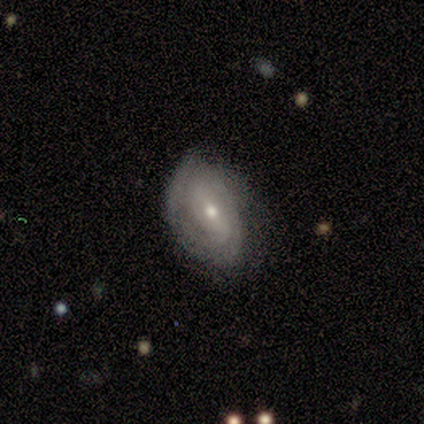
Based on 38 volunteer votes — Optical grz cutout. It shows a featured or disk galaxy (74%) with no bar (46%), 2 (48%) tight (67%) spiral arms (81%) and a moderate central bulge (50%). Merging: none (49%).